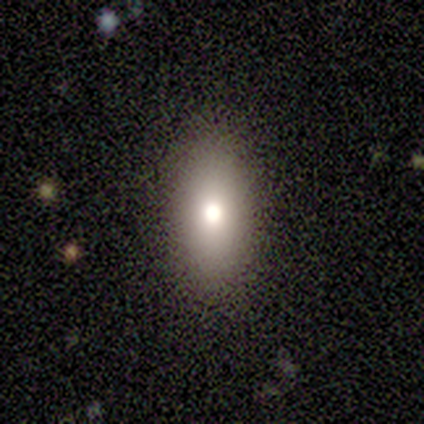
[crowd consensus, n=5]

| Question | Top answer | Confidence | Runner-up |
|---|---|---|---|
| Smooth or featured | smooth | 80% | featured or disk (20%) |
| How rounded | in between | 100% | — |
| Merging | none | 100% | — |